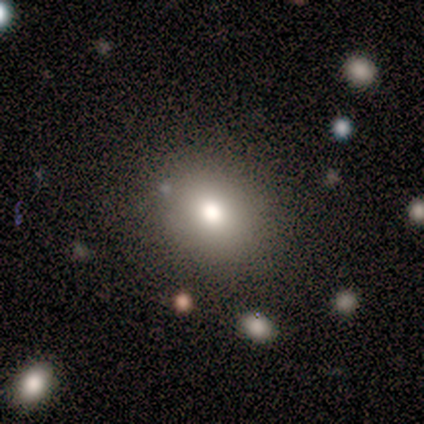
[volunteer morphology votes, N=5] Smooth or featured: smooth — 100%
How rounded: in between — 80% (round — 20%)
Merging: none — 60% (minor disturbance — 20%)